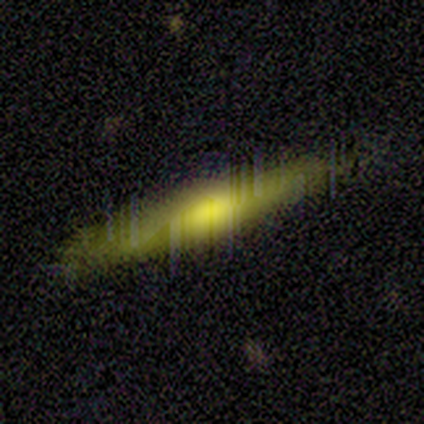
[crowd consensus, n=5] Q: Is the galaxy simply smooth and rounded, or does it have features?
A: featured or disk — 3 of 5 (60%).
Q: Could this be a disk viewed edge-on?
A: yes — 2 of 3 (67%).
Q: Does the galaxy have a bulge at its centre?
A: boxy — 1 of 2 (50%, tied with rounded).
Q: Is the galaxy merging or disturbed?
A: none — 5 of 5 (100%).